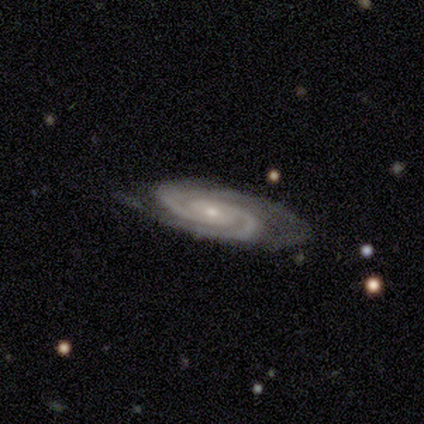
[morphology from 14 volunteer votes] Smooth or featured?
  - featured or disk: 86% *
  - smooth: 7%
  - star or artifact: 7%
Edge-on disk?
  - no: 83% *
  - yes: 17%
Bar?
  - no: 70% *
  - weak: 30%
  - strong: 0%
Spiral arms?
  - yes: 100% *
  - no: 0%
Spiral winding?
  - tight: 70% *
  - medium: 30%
  - loose: 0%
Spiral arm count?
  - 2: 80% *
  - 3: 20%
  - 1: 0%
  - 4: 0%
  - more than 4: 0%
  - can't tell: 0%
Bulge size?
  - small: 80% *
  - moderate: 20%
  - dominant: 0%
  - large: 0%
  - none: 0%
Merging?
  - none: 69% *
  - minor disturbance: 31%
  - major disturbance: 0%
  - merger: 0%